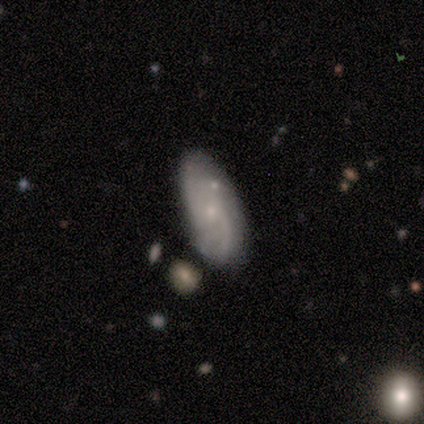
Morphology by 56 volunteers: Smooth or featured? 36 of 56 (64%) said featured or disk. Edge-on disk? 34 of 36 (94%) said no. Bar? 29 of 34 (85%) said no. Spiral arms? 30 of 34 (88%) said yes. Spiral winding? 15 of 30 (50%) said loose. Spiral arm count? 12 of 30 (40%) said 2. Bulge size? 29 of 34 (85%) said small. Merging? 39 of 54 (72%) said none.